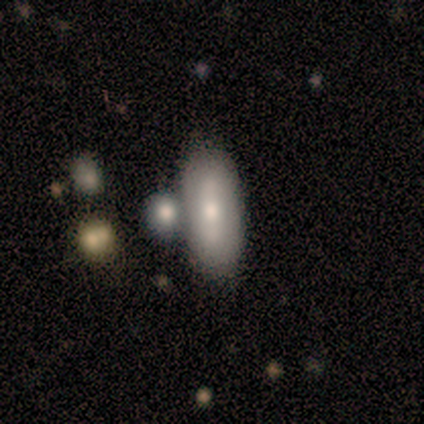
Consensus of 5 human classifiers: smooth 80%, featured or disk 20%, star or artifact 0%. Down the decision tree: how rounded — in between (50%, tied with cigar-shaped); merging — merger (60%).